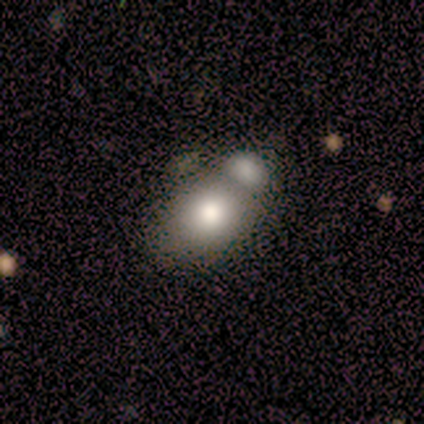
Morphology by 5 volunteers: smooth-or-featured: smooth: 40% (tied) | featured or disk: 40% (tied) | star or artifact: 20%
  how-rounded: round: 50% (tied) | in between: 50% (tied) | cigar-shaped: 0%
  merging: merger: 100% | none: 0% | minor disturbance: 0% | major disturbance: 0%